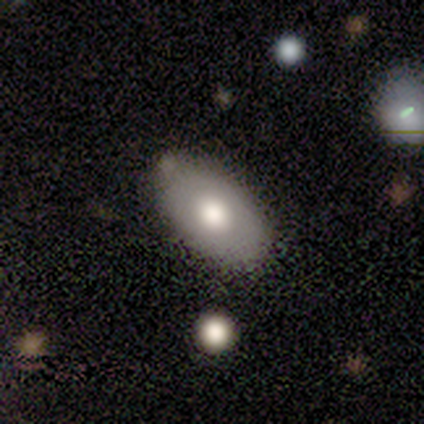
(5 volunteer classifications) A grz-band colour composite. It shows a smooth galaxy with no disk features (60%) that is in between round and cigar-shaped (100%). Merging: none (100%).